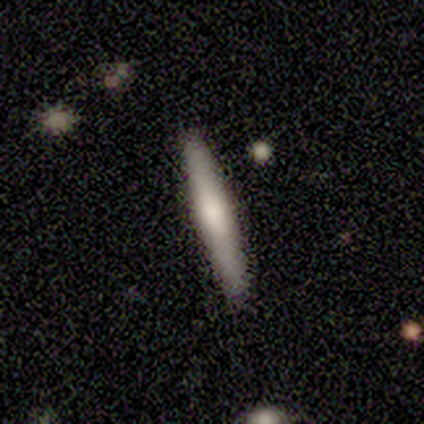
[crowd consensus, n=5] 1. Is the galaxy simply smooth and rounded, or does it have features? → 60% smooth, 40% featured or disk, 0% star or artifact.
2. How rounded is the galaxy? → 100% cigar-shaped, 0% round, 0% in between.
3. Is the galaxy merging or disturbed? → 80% none, 20% minor disturbance, 0% major disturbance, 0% merger.